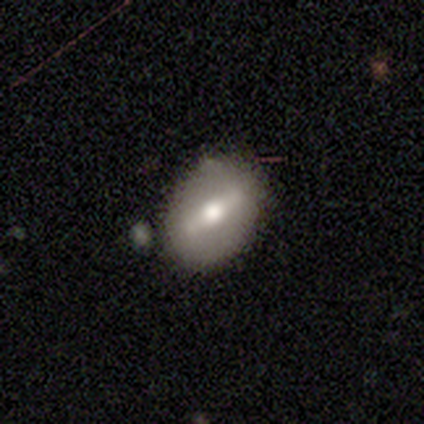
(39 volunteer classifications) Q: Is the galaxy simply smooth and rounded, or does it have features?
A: featured or disk — 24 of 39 (62%).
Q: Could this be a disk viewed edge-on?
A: no — 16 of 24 (67%).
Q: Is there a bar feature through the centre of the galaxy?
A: strong — 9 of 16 (56%).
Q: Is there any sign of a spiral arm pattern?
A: no — 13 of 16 (81%).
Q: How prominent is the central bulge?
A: moderate — 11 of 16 (69%).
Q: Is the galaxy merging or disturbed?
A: none — 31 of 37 (84%).